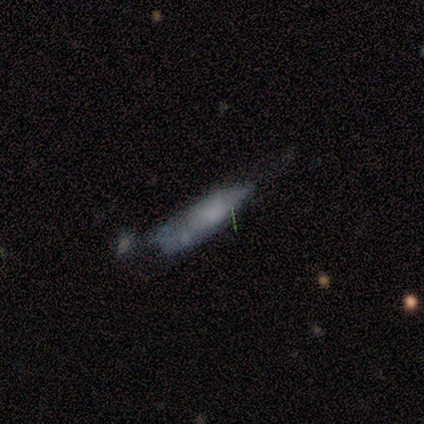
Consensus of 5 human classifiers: A smooth galaxy with no disk features (60%) that is cigar-shaped (67%).

Vote fractions:
- Smooth or featured? smooth: 60% / featured or disk: 40% / star or artifact: 0%
- How rounded? cigar-shaped: 67% / in between: 33% / round: 0%
- Merging? none: 40% / minor disturbance: 20% / major disturbance: 20% / merger: 20%